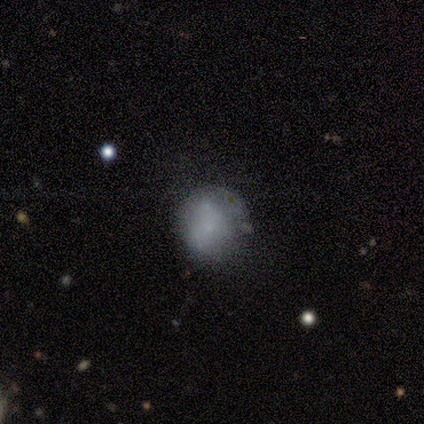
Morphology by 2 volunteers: Smooth or featured? 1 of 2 (50%, tied with featured or disk) said smooth. How rounded? 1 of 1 (100%) said round. Merging? 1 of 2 (50%, tied with minor disturbance) said none.